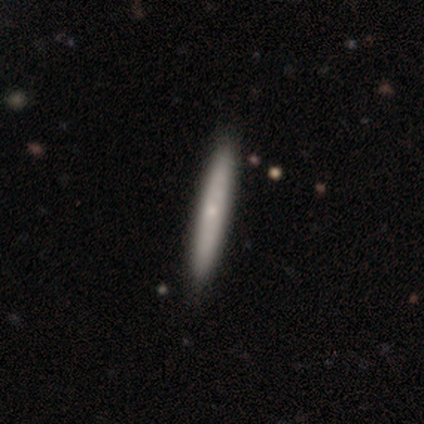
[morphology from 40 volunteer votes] A smooth galaxy with no disk features (62%) that is cigar-shaped (96%).

Vote fractions:
- Smooth or featured? smooth: 62% / featured or disk: 35% / star or artifact: 2%
- How rounded? cigar-shaped: 96% / in between: 4% / round: 0%
- Merging? none: 74% / major disturbance: 3% / merger: 3% / minor disturbance: 0%